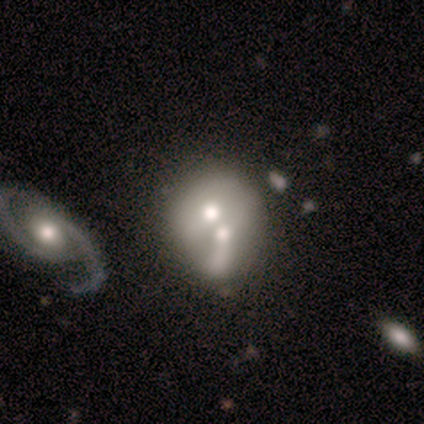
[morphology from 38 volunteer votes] type=featured or disk (47%); edge-on=no (94%); bar=no (76%); spiral arms=no (76%); bulge=moderate (41%); merging=merger (74%).